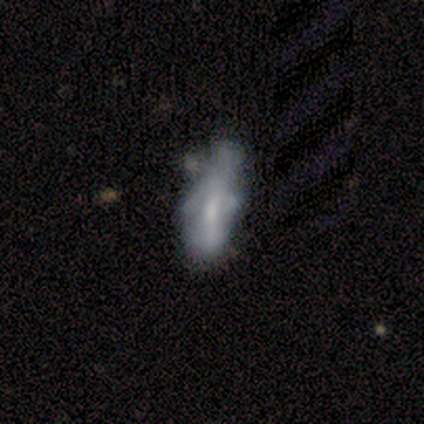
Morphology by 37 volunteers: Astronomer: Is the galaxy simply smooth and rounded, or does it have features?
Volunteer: smooth — 46%, tied with featured or disk at 46%.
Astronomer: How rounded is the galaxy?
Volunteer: in between — 76%.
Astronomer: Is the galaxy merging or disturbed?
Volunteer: none — 24% (runner-up: major disturbance, 21%).